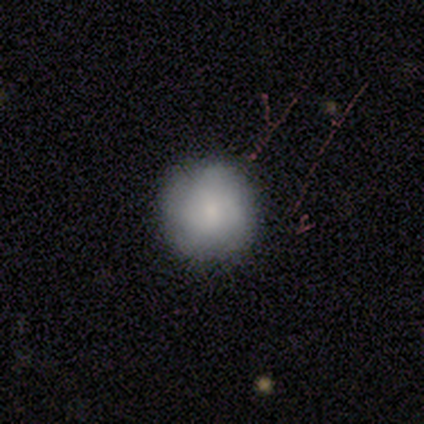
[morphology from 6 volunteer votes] smooth-or-featured: smooth: 67% | featured or disk: 33% | star or artifact: 0%
  how-rounded: round: 100% | in between: 0% | cigar-shaped: 0%
  merging: none: 67% | minor disturbance: 33% | major disturbance: 0% | merger: 0%